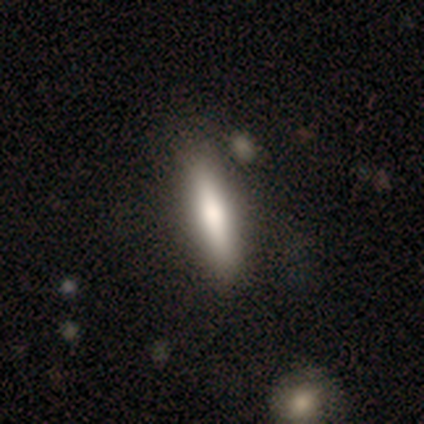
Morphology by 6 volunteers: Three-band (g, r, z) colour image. It shows a smooth galaxy with no disk features (83%) that is cigar-shaped (60%). Merging: minor disturbance (50%).